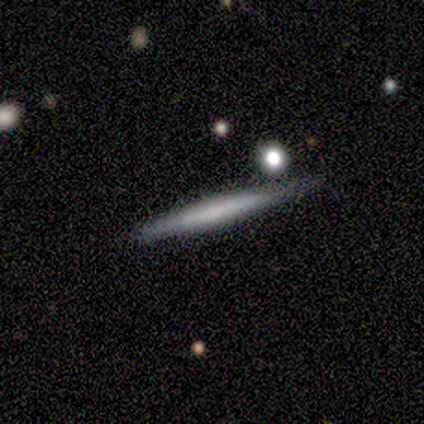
Smooth or featured?
  - smooth: 50% * (tied)
  - featured or disk: 50% * (tied)
  - star or artifact: 0%
How rounded?
  - cigar-shaped: 100% *
  - round: 0%
  - in between: 0%
Merging?
  - none: 75% *
  - minor disturbance: 25%
  - major disturbance: 0%
  - merger: 0%